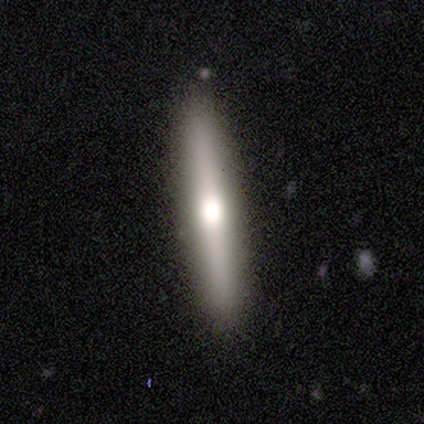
Q: Smooth or featured?
A: featured or disk (67%); runner-up: smooth (33%)
Q: Edge-on disk?
A: yes (100%)
Q: Edge-on bulge?
A: rounded (100%)
Q: Merging?
A: none (100%)